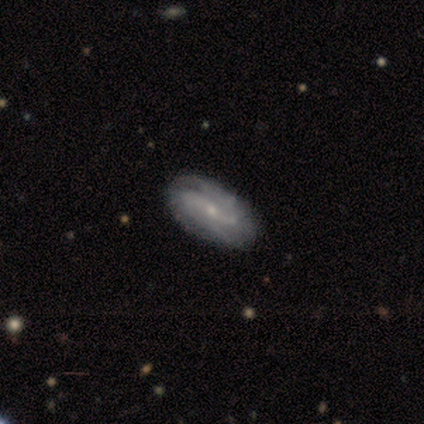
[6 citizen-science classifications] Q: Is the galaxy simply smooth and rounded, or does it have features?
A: featured or disk — 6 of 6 (100%).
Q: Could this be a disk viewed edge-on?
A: no — 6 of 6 (100%).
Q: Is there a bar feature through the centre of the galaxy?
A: weak — 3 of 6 (50%, tied with no).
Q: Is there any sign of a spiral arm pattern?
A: yes — 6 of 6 (100%).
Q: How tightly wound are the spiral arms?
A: loose — 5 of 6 (83%).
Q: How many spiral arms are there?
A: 2 — 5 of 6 (83%).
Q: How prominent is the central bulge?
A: small — 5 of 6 (83%).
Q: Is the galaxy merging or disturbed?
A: none — 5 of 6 (83%).